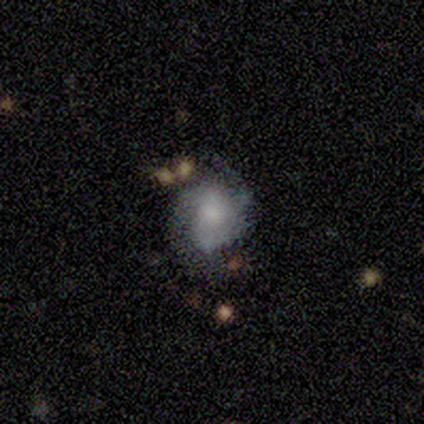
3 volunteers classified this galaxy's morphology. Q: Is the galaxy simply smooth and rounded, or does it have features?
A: smooth — 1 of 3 (33%, tied with featured or disk and star or artifact).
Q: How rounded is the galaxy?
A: in between — 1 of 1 (100%).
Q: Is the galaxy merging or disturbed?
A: none — 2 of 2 (100%).